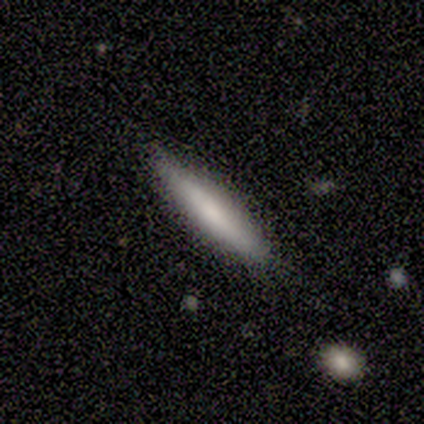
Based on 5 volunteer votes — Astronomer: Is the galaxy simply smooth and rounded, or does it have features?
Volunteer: smooth — 80%.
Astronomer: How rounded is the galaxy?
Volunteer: cigar-shaped — 75%.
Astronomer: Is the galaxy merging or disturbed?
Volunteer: none — 80%.